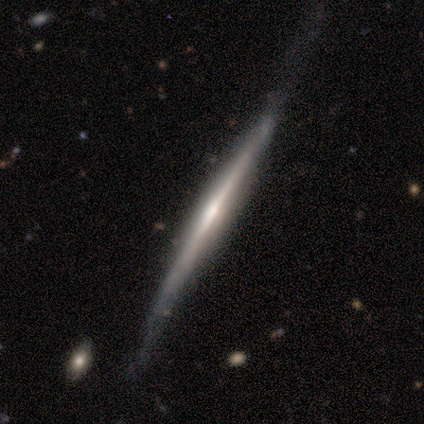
Smooth or featured: featured or disk — 75% (smooth — 25%)
Edge-on disk: yes — 100%
Edge-on bulge: rounded — 67% (boxy — 33%)
Merging: none — 75% (minor disturbance — 25%)